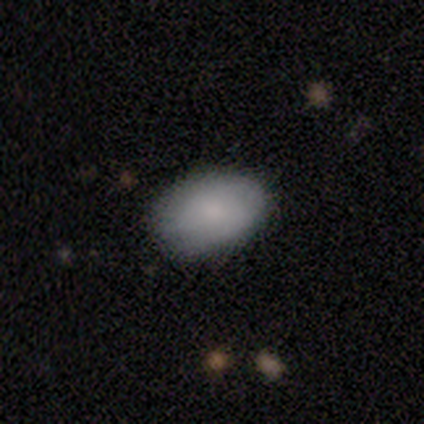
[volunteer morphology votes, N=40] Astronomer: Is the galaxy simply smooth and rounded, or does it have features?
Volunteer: smooth — 90%.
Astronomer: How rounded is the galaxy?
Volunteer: in between — 92%.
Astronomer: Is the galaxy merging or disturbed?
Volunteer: none — 85%.